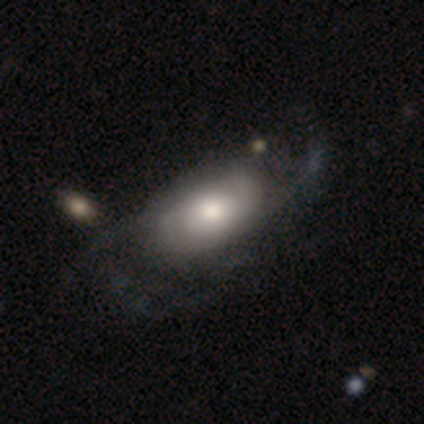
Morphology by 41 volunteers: Smooth or featured? 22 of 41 (54%) said featured or disk. Edge-on disk? 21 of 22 (95%) said no. Bar? 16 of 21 (76%) said no. Spiral arms? 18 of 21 (86%) said yes. Spiral winding? 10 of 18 (56%) said loose. Spiral arm count? 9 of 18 (50%) said 2. Bulge size? 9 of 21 (43%) said moderate. Merging? 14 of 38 (37%) said none.